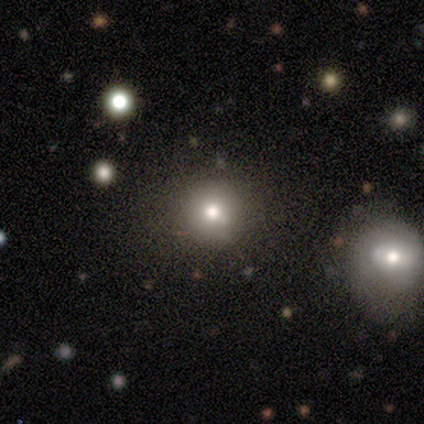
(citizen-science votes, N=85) smooth_or_featured: smooth (p=0.68) [alt: star or artifact p=0.25]
how_rounded: round (p=0.95) [alt: in between p=0.05]
merging: none (p=0.83) [alt: minor disturbance p=0.08]